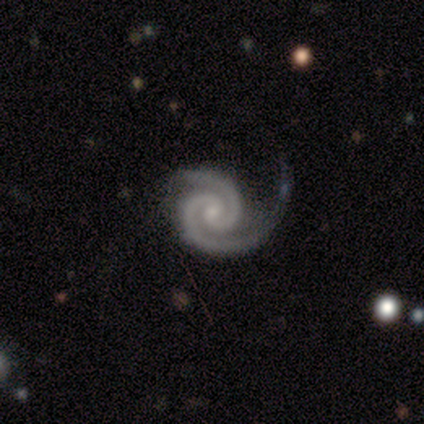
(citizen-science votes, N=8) Smooth or featured?
  - featured or disk: 100% *
  - smooth: 0%
  - star or artifact: 0%
Edge-on disk?
  - no: 100% *
  - yes: 0%
Bar?
  - no: 88% *
  - weak: 12%
  - strong: 0%
Spiral arms?
  - yes: 100% *
  - no: 0%
Spiral winding?
  - tight: 88% *
  - medium: 12%
  - loose: 0%
Spiral arm count?
  - 2: 100% *
  - 1: 0%
  - 3: 0%
  - 4: 0%
  - more than 4: 0%
  - can't tell: 0%
Bulge size?
  - small: 62% *
  - moderate: 25%
  - none: 12%
  - dominant: 0%
  - large: 0%
Merging?
  - major disturbance: 50% *
  - none: 38%
  - minor disturbance: 12%
  - merger: 0%